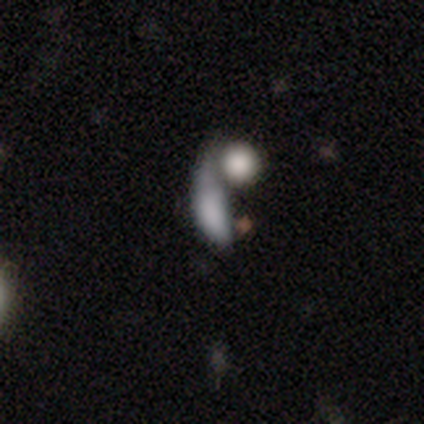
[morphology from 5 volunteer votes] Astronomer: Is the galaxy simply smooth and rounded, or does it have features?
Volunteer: smooth — 60%.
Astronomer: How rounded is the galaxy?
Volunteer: round — 33%, tied with in between and cigar-shaped at 33%.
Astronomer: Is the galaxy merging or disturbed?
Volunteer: merger — 75%.